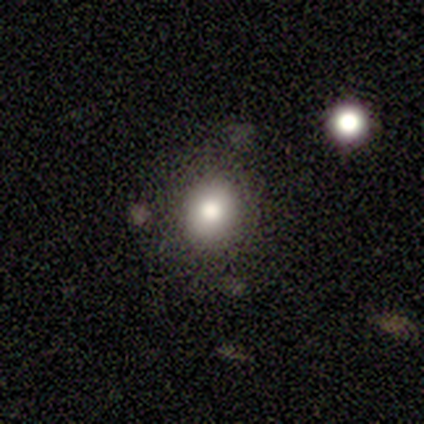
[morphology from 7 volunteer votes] Q: Smooth or featured?
A: smooth (100%)
Q: How rounded?
A: round (57%); runner-up: in between (43%)
Q: Merging?
A: none (100%)